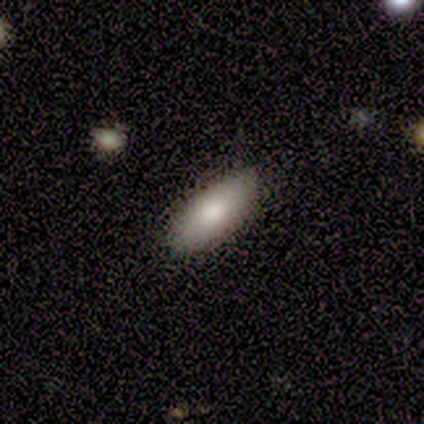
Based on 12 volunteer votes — Smooth or featured?
  - smooth: 92% *
  - featured or disk: 8%
  - star or artifact: 0%
How rounded?
  - in between: 82% *
  - cigar-shaped: 18%
  - round: 0%
Merging?
  - none: 100% *
  - minor disturbance: 0%
  - major disturbance: 0%
  - merger: 0%